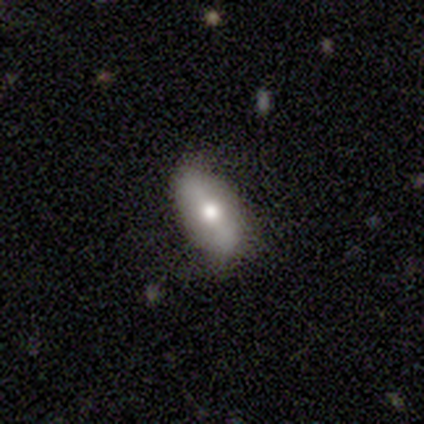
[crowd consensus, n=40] Overall: smooth (55%; featured or disk 32%). How rounded: in between (86%). Merging: none (63%; minor disturbance 29%).